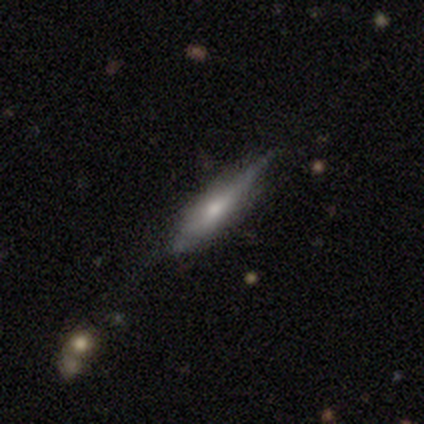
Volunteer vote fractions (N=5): A featured or disk galaxy (60%) viewed edge-on (67%) with a rounded central bulge (100%). Merging: none (75%).